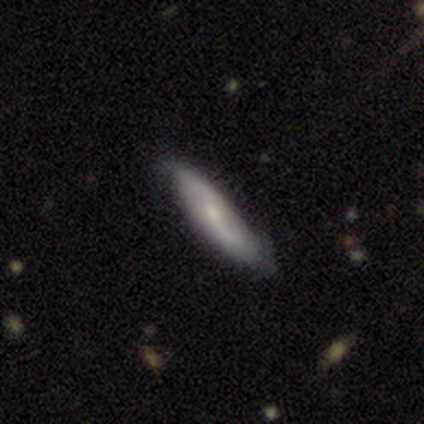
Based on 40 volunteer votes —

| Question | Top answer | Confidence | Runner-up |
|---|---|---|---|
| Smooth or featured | featured or disk | 70% | smooth (30%) |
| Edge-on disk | no | 93% | yes (7%) |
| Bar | no | 54% | weak (38%) |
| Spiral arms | yes | 100% | — |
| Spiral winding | loose | 46% | medium (38%) |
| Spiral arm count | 2 | 81% | can't tell (19%) |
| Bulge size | small | 65% | moderate (27%) |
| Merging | none | 52% | minor disturbance (8%) |